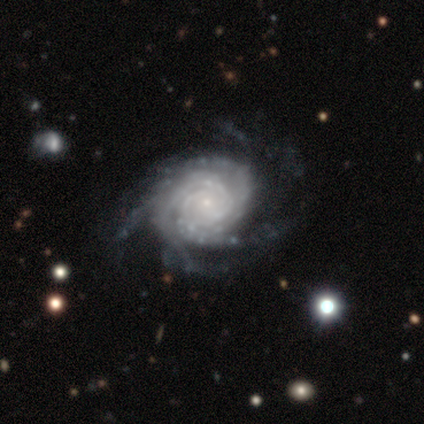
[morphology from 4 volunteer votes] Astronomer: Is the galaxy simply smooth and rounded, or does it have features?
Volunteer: featured or disk — 100%.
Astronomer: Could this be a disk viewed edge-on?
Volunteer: no — 100%.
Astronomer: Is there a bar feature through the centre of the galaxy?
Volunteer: no — 75%.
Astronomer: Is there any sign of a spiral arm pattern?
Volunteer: yes — 100%.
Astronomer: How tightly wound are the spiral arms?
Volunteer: tight — 75%.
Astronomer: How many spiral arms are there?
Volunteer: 3 — 50%.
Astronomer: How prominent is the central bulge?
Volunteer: small — 100%.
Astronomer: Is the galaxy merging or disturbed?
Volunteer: none — 75%.